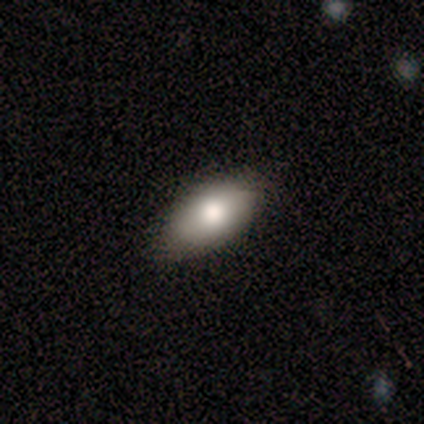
A smooth galaxy with no disk features (60%) that is in between round and cigar-shaped (100%). Merging: none (75%).